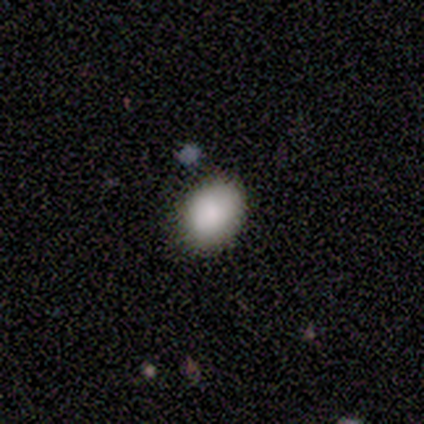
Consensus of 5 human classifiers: A smooth galaxy with no disk features (100%) that is round (60%).

Vote fractions:
- Smooth or featured? smooth: 100% / featured or disk: 0% / star or artifact: 0%
- How rounded? round: 60% / in between: 40% / cigar-shaped: 0%
- Merging? none: 100% / minor disturbance: 0% / major disturbance: 0% / merger: 0%